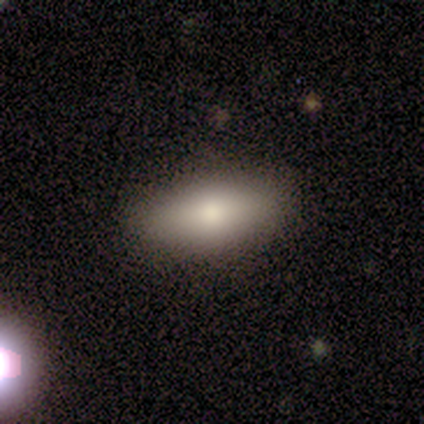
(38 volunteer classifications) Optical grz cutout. It shows a smooth galaxy with no disk features (71%) that is in between round and cigar-shaped (100%). Merging: none (91%).